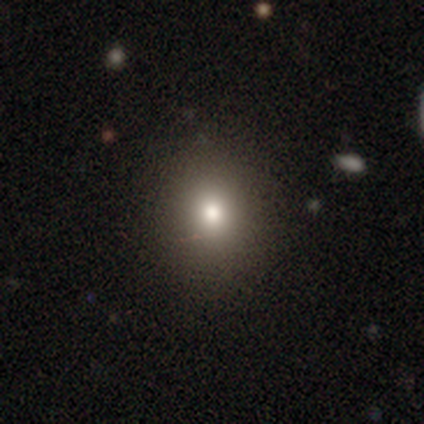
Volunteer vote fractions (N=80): Morphology: type=smooth (84%); roundness=round (79%); merging=none (58%).